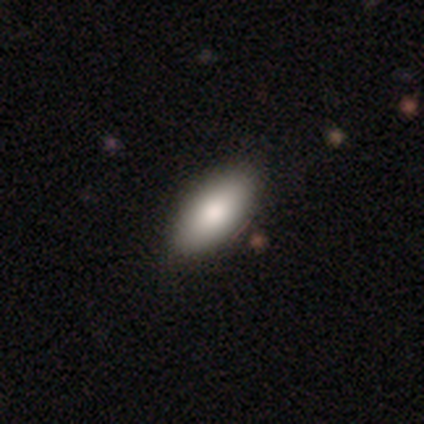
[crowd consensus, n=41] Smooth or featured?
  - smooth: 90% *
  - featured or disk: 10%
  - star or artifact: 0%
How rounded?
  - in between: 95% *
  - cigar-shaped: 5%
  - round: 0%
Merging?
  - none: 83% *
  - minor disturbance: 2%
  - major disturbance: 0%
  - merger: 0%